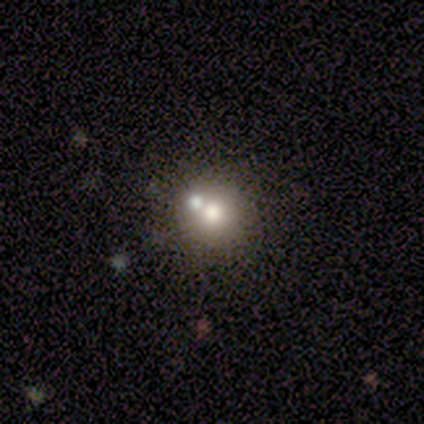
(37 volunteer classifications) Overall: featured or disk (49%; smooth 32%). Edge-on disk: no (94%). Bar: no (94%). Spiral arms: no (94%). Bulge size: moderate (71%). Merging: none (53%; merger 33%).